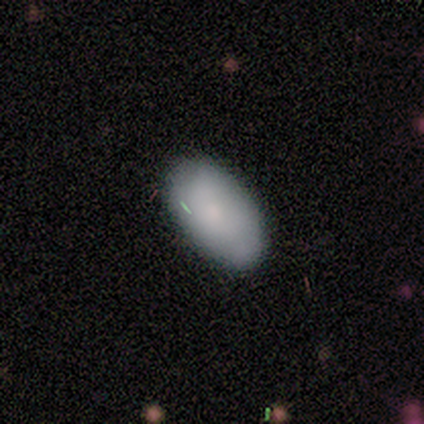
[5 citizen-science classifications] Smooth or featured? smooth (100%)
How rounded? in between (80%)
Merging? none (100%)